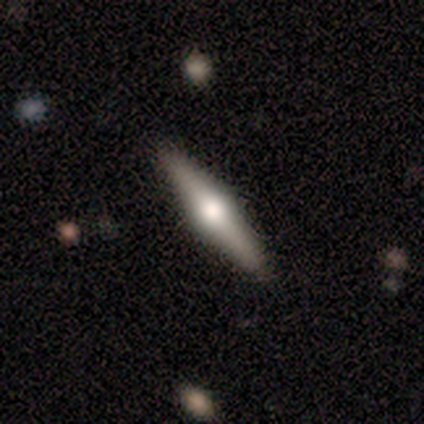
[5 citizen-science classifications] smooth_or_featured: featured or disk (p=1.00)
disk_edge_on: yes (p=1.00)
edge_on_bulge: rounded (p=1.00)
merging: none (p=0.80) [alt: major disturbance p=0.20]